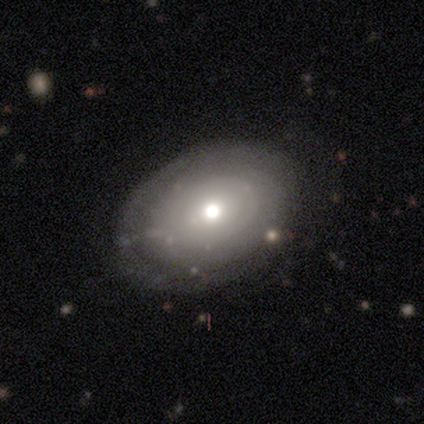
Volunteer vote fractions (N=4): smooth 75%, featured or disk 25%, star or artifact 0%. Down the decision tree: how rounded — round (67%); merging — none (100%).